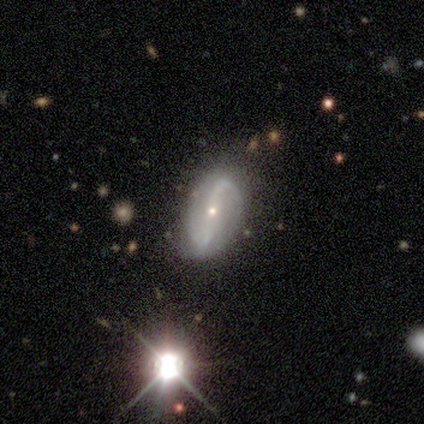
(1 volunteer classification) Consensus on every question: smooth or featured — featured or disk (100%); edge-on disk — yes (100%); edge-on bulge — rounded (100%); merging — minor disturbance (100%).